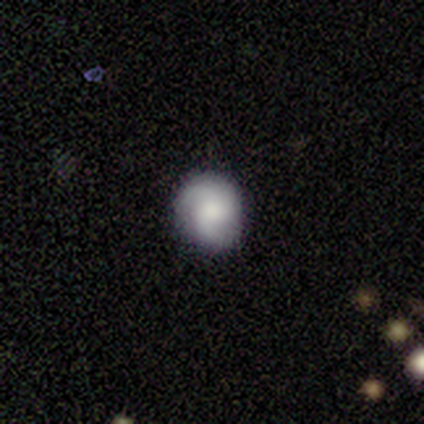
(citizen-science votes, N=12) Smooth or featured?
  - featured or disk: 50% *
  - smooth: 42%
  - star or artifact: 8%
Edge-on disk?
  - no: 100% *
  - yes: 0%
Bar?
  - no: 100% *
  - strong: 0%
  - weak: 0%
Spiral arms?
  - yes: 100% *
  - no: 0%
Spiral winding?
  - medium: 50% *
  - tight: 33%
  - loose: 17%
Spiral arm count?
  - 2: 50% *
  - can't tell: 33%
  - 3: 17%
  - 1: 0%
  - 4: 0%
  - more than 4: 0%
Bulge size?
  - moderate: 50% *
  - large: 33%
  - none: 17%
  - dominant: 0%
  - small: 0%
Merging?
  - none: 82% *
  - minor disturbance: 18%
  - major disturbance: 0%
  - merger: 0%